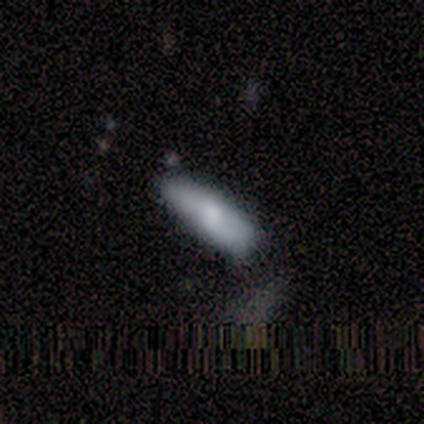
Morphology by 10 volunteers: A smooth galaxy with no disk features (70%) that is in between round and cigar-shaped (71%).

Vote fractions:
- Smooth or featured? smooth: 70% / featured or disk: 30% / star or artifact: 0%
- How rounded? in between: 71% / cigar-shaped: 29% / round: 0%
- Merging? none: 80% / minor disturbance: 20% / major disturbance: 0% / merger: 0%